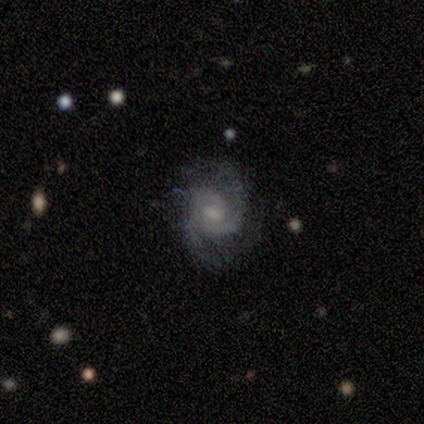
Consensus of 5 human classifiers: A featured or disk galaxy (80%) with a weak bar (50%), 2 (75%) medium (50%) spiral arms (100%) and a moderate central bulge (75%).

Vote fractions:
- Smooth or featured? featured or disk: 80% / smooth: 20% / star or artifact: 0%
- Edge-on disk? no: 100% / yes: 0%
- Bar? weak: 50% / strong: 25% / no: 25%
- Spiral arms? yes: 100% / no: 0%
- Spiral winding? medium: 50% / tight: 25% / loose: 25%
- Spiral arm count? 2: 75% / 3: 25% / 1: 0% / 4: 0% / more than 4: 0% / can't tell: 0%
- Bulge size? moderate: 75% / small: 25% / dominant: 0% / large: 0% / none: 0%
- Merging? none: 80% / minor disturbance: 20% / major disturbance: 0% / merger: 0%